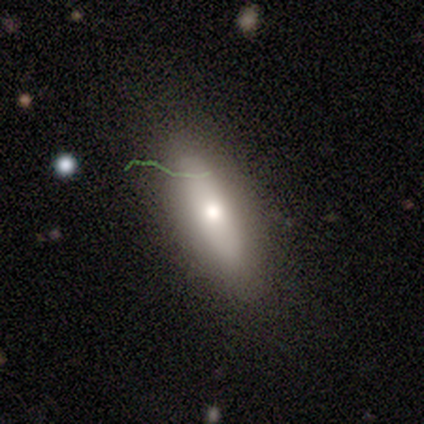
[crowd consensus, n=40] This is likely a smooth galaxy (62%). How rounded: possibly in between (52%). Merging: clearly none (88%).